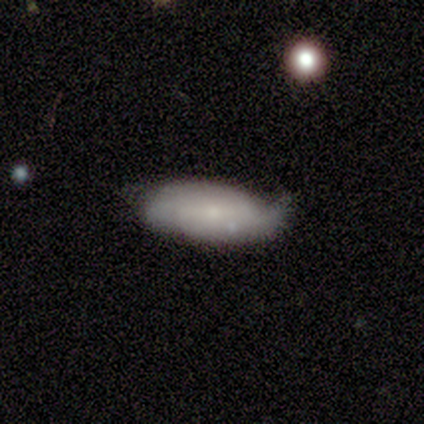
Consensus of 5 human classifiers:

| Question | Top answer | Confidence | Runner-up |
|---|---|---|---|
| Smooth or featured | smooth | 100% | — |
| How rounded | in between | 80% | cigar-shaped (20%) |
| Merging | none | 40% | tied: minor disturbance (40%) |